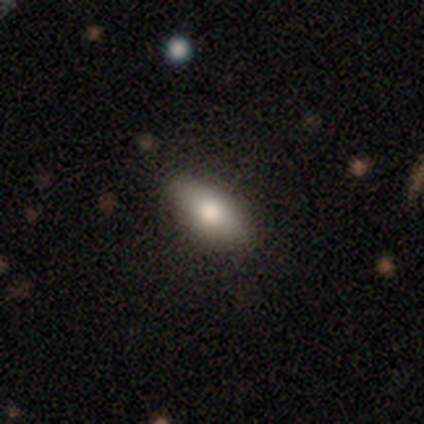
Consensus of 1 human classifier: Smooth or featured? featured or disk (100%)
Edge-on disk? no (100%)
Bar? no (100%)
Spiral arms? no (100%)
Bulge size? moderate (100%)
Merging? none (100%)